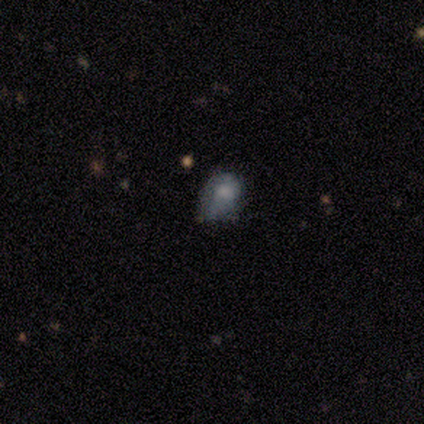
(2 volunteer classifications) This is possibly a smooth galaxy (50%, tied with star or artifact). How rounded: clearly in between (100%). Merging: clearly minor disturbance (100%).